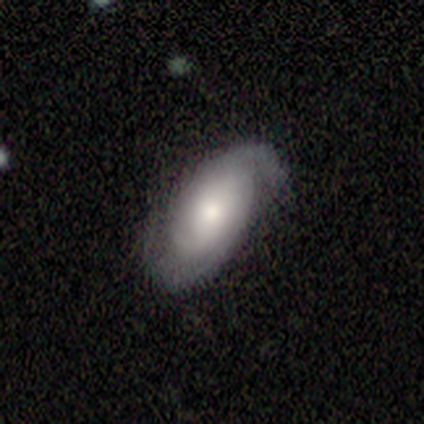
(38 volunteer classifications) featured or disk 76%, smooth 24%, star or artifact 0%. Down the decision tree: edge-on disk — no (90%); bar — no (69%); spiral arms — yes (96%); spiral arm count — 2 (64%); spiral winding — tight (52%); bulge size — moderate (62%); merging — none (71%).